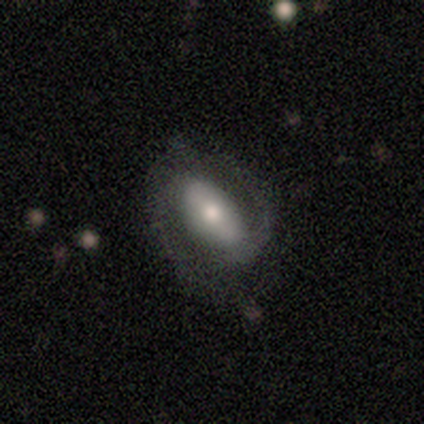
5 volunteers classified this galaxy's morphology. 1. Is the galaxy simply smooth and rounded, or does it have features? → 80% featured or disk, 20% smooth, 0% star or artifact.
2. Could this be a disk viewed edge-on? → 75% no, 25% yes.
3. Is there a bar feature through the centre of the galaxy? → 67% strong, 33% weak, 0% no.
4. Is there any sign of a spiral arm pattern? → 100% yes, 0% no.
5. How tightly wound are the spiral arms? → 67% medium, 33% tight, 0% loose.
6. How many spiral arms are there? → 67% 2, 33% 1, 0% 3, 0% 4, 0% more than 4, 0% can't tell.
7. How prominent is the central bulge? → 100% moderate, 0% dominant, 0% large, 0% small, 0% none.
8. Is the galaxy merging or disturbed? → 60% none, 40% major disturbance, 0% minor disturbance, 0% merger.